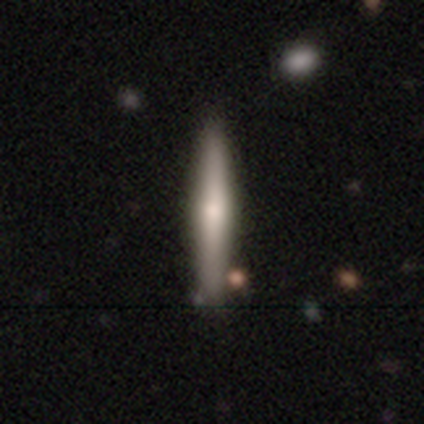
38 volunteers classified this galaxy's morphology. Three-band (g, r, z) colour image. It shows a smooth galaxy with no disk features (50%) that is cigar-shaped (89%). Merging: none (84%).